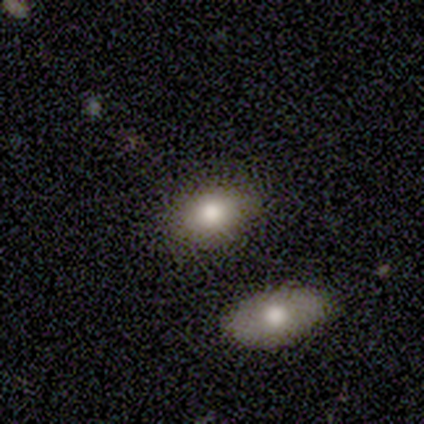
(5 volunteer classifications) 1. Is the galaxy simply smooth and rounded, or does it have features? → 60% smooth, 40% featured or disk, 0% star or artifact.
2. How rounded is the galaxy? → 100% in between, 0% round, 0% cigar-shaped.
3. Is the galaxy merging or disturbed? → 60% none, 20% minor disturbance, 20% merger, 0% major disturbance.